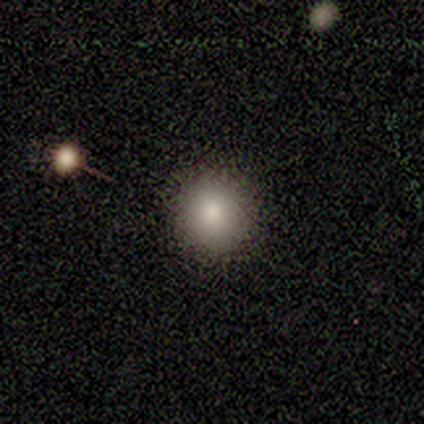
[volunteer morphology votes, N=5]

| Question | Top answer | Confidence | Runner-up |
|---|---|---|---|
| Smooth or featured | smooth | 80% | featured or disk (20%) |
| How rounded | round | 100% | — |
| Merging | none | 100% | — |